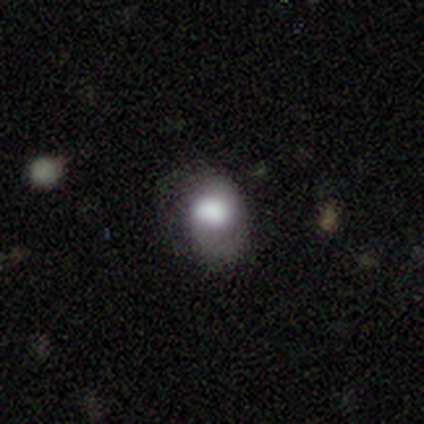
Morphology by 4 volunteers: Smooth or featured? 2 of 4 (50%, tied with star or artifact) said smooth. How rounded? 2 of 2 (100%) said in between. Merging? 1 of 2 (50%, tied with major disturbance) said minor disturbance.